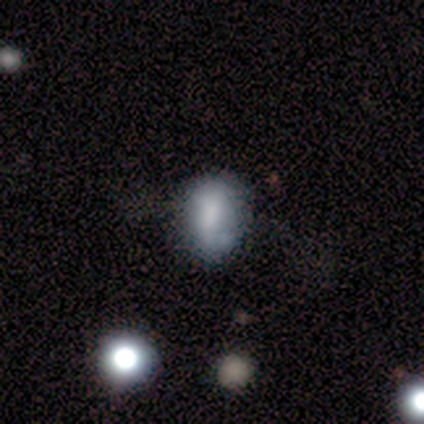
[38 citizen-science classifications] Smooth or featured?
  - smooth: 66% *
  - featured or disk: 24%
  - star or artifact: 11%
How rounded?
  - in between: 84% *
  - round: 16%
  - cigar-shaped: 0%
Merging?
  - none: 44% *
  - minor disturbance: 32%
  - major disturbance: 21%
  - merger: 3%